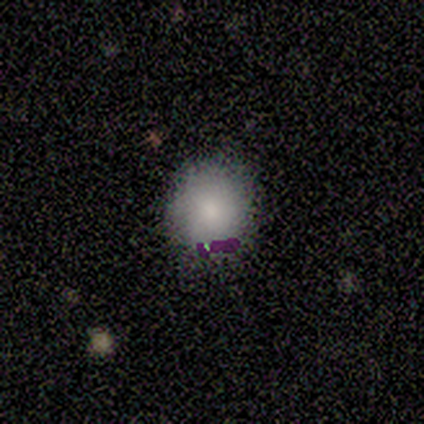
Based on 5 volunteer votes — A smooth galaxy with no disk features (100%) that is round (80%).

Vote fractions:
- Smooth or featured? smooth: 100% / featured or disk: 0% / star or artifact: 0%
- How rounded? round: 80% / in between: 20% / cigar-shaped: 0%
- Merging? none: 100% / minor disturbance: 0% / major disturbance: 0% / merger: 0%